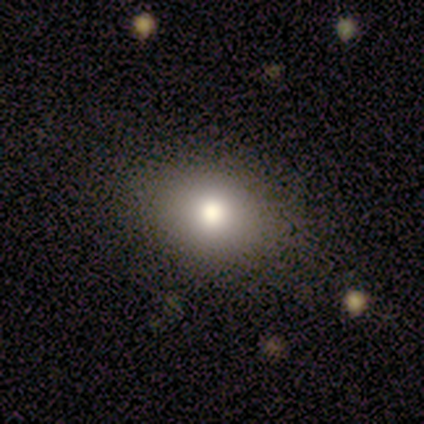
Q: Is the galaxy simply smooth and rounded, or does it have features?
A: smooth — 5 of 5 (100%).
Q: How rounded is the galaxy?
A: round — 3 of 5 (60%).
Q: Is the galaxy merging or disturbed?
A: none — 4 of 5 (80%).